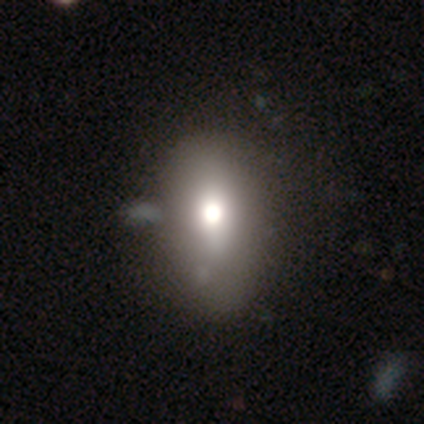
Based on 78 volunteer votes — This is likely a smooth galaxy (71%). How rounded: clearly in between (89%). Merging: marginally none (33%).